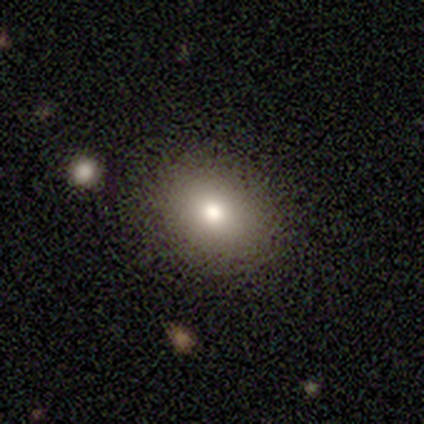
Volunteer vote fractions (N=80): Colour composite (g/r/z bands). It shows a smooth galaxy with no disk features (79%) that is round (56%). Merging: none (43%).